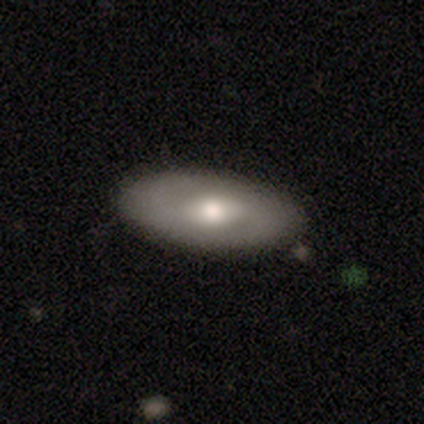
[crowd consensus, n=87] Overall: smooth (47%; featured or disk 46%). How rounded: in between (88%). Merging: none (81%).